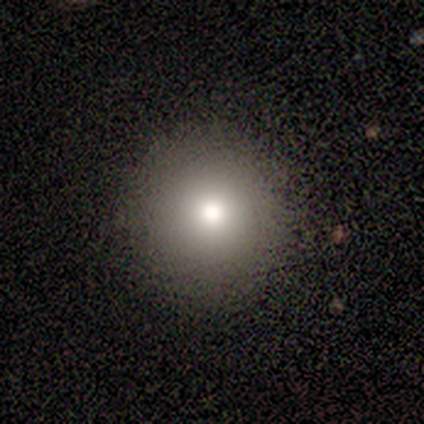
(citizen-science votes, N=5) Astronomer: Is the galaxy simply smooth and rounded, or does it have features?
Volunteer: smooth — 80%.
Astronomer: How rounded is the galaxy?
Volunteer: round — 75%.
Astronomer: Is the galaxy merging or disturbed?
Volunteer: none — 100%.